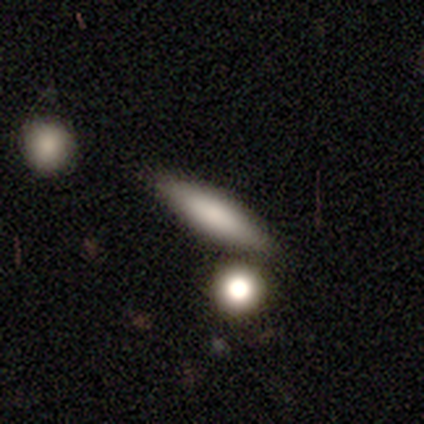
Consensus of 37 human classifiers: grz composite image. It shows a smooth galaxy with no disk features (70%) that is cigar-shaped (73%). Merging: none (72%).